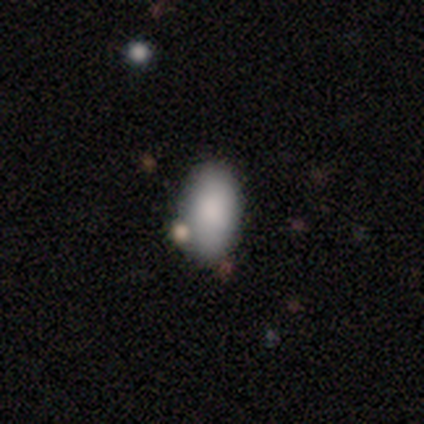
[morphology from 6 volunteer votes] type=smooth (100%); roundness=in between (100%); merging=none (100%).